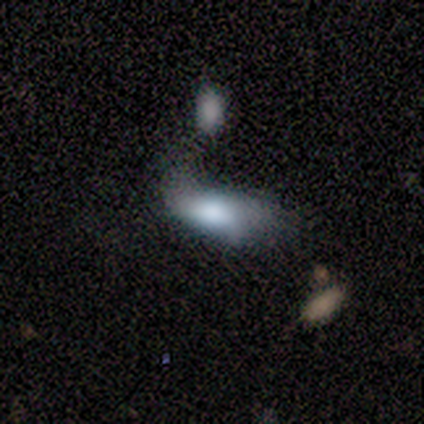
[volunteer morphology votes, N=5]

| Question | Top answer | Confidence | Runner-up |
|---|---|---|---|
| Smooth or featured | smooth | 100% | — |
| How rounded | in between | 100% | — |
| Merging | minor disturbance | 60% | none (40%) |